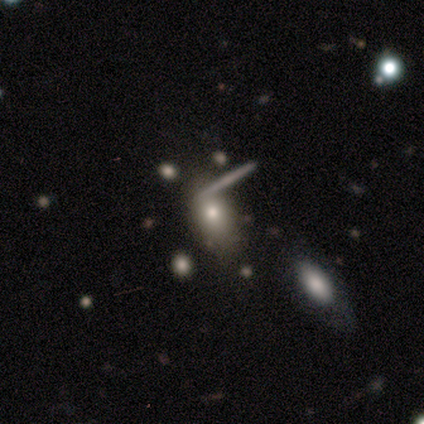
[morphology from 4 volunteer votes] Q: Smooth or featured?
A: smooth (75%); runner-up: featured or disk (25%)
Q: How rounded?
A: in between (100%)
Q: Merging?
A: none (75%); runner-up: minor disturbance (25%)